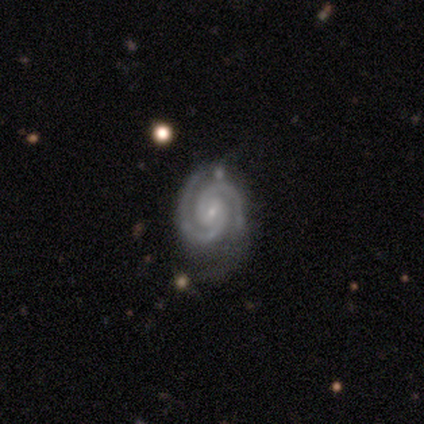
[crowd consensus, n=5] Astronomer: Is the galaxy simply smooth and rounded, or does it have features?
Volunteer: featured or disk — 100%.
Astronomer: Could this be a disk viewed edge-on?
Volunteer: no — 100%.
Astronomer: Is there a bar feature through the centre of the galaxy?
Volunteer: no — 80%.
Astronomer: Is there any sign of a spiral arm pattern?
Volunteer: yes — 100%.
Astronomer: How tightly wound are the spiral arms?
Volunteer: tight — 60% (runner-up: medium, 40%).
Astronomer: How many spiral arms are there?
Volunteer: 2 — 100%.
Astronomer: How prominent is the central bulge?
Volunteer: small — 100%.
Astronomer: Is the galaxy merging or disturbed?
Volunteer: minor disturbance — 60% (runner-up: none, 40%).